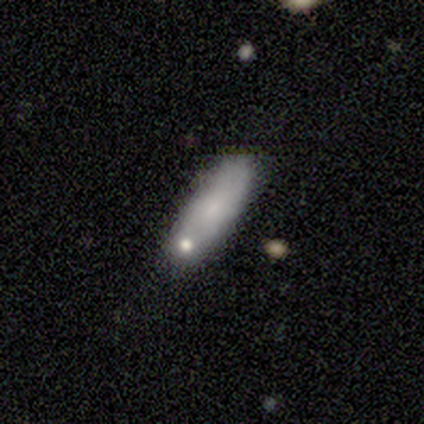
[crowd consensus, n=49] A smooth galaxy with no disk features (73%) that is in between round and cigar-shaped (53%). Merging: none (65%).